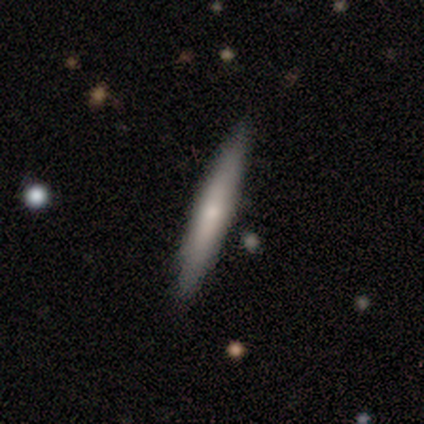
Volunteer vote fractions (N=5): smooth-or-featured: smooth: 80% | featured or disk: 20% | star or artifact: 0%
  how-rounded: cigar-shaped: 100% | round: 0% | in between: 0%
  merging: none: 100% | minor disturbance: 0% | major disturbance: 0% | merger: 0%